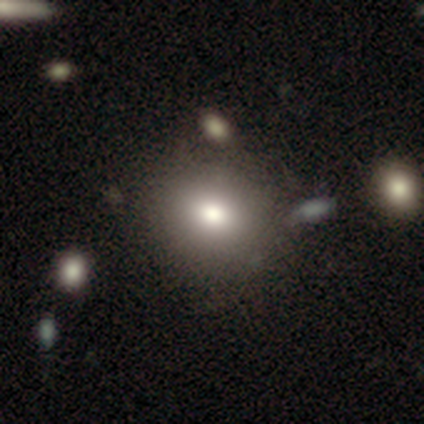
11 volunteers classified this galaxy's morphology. This is likely a smooth galaxy (73%). How rounded: likely round (75%). Merging: likely none (78%).